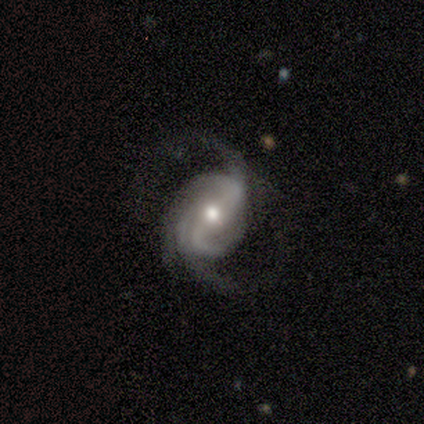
Smooth or featured? featured or disk (94%)
Edge-on disk? no (100%)
Bar? no (38%)
Spiral arms? yes (100%)
Spiral winding? loose (50%)
Spiral arm count? 2 (56%)
Bulge size? moderate (75%)
Merging? none (69%)